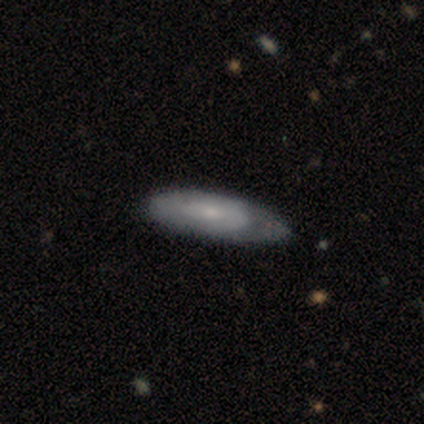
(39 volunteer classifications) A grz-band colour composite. It shows a smooth galaxy with no disk features (62%) that is in between round and cigar-shaped (67%). Merging: none (33%, tied with minor disturbance).